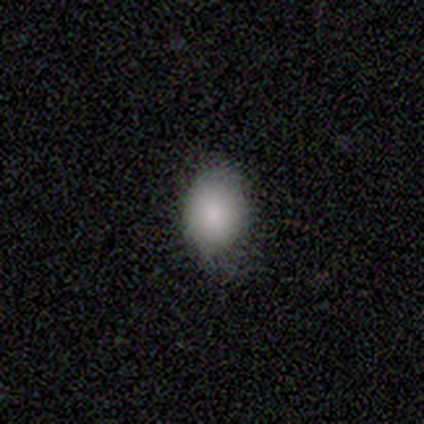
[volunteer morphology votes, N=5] smooth-or-featured: smooth: 80% | featured or disk: 20% | star or artifact: 0%
  how-rounded: in between: 100% | round: 0% | cigar-shaped: 0%
  merging: none: 80% | minor disturbance: 20% | major disturbance: 0% | merger: 0%